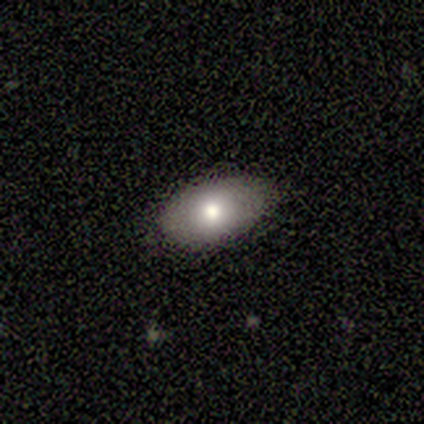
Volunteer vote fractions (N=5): Morphology: type=smooth (100%); roundness=in between (100%); merging=minor disturbance (60%).